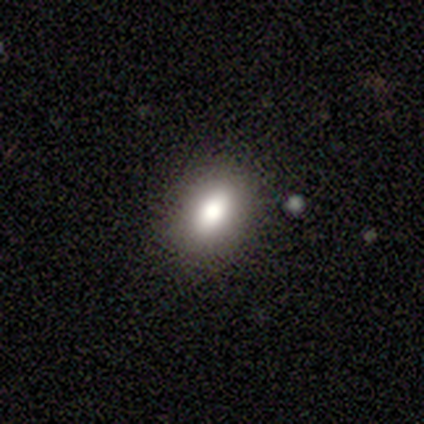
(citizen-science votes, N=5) This is clearly a smooth galaxy (100%). How rounded: clearly in between (80%). Merging: likely none (60%).